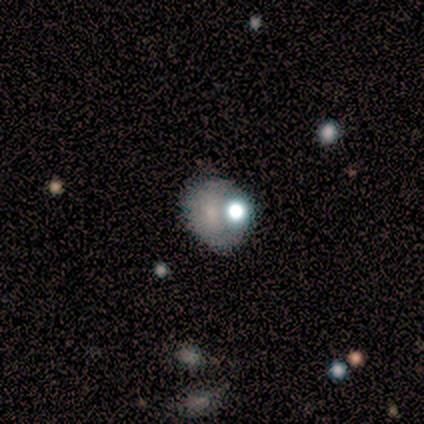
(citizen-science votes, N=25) Smooth or featured? smooth (60%)
How rounded? round (53%)
Merging? none (68%)